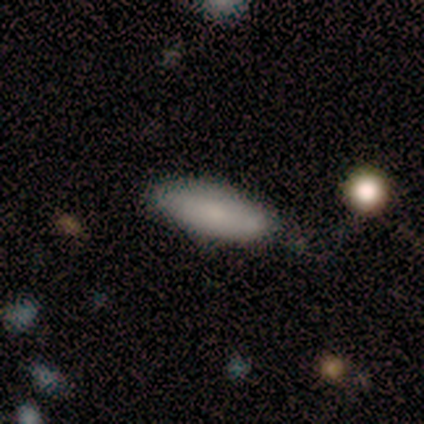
smooth-or-featured: smooth: 80% | star or artifact: 20% | featured or disk: 0%
  how-rounded: in between: 75% | cigar-shaped: 25% | round: 0%
  merging: none: 100% | minor disturbance: 0% | major disturbance: 0% | merger: 0%